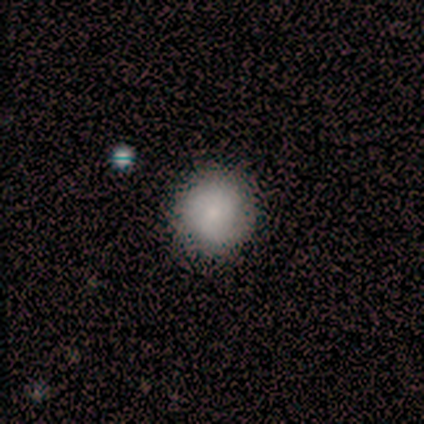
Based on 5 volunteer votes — Morphology: type=smooth (60%); roundness=round (67%); merging=none (80%).